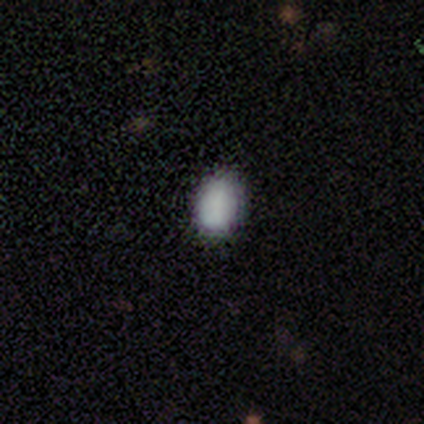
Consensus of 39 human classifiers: smooth 87%, featured or disk 8%, star or artifact 5%. Down the decision tree: how rounded — in between (71%); merging — none (59%).